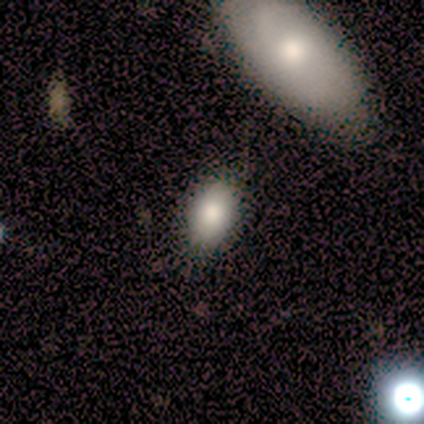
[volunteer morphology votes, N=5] Smooth or featured: smooth — 100%
How rounded: in between — 100%
Merging: none — 80% (merger — 20%)